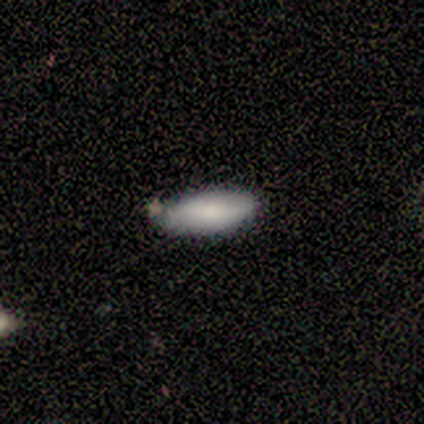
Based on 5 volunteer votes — This appears to be a smooth galaxy with no disk features (100%) that is in between round and cigar-shaped (60%). Merging: none (100%).